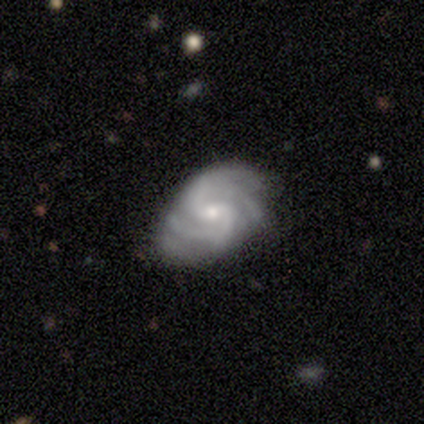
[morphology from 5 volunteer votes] Q: Smooth or featured?
A: featured or disk (80%); runner-up: smooth (20%)
Q: Edge-on disk?
A: no (100%)
Q: Bar?
A: weak (50%); runner-up: strong (25%)
Q: Spiral arms?
A: yes (100%)
Q: Spiral winding?
A: medium (75%); runner-up: loose (25%)
Q: Spiral arm count?
A: 2 (50%); runner-up: 3 (25%)
Q: Bulge size?
A: moderate (75%); runner-up: small (25%)
Q: Merging?
A: minor disturbance (60%); runner-up: none (40%)